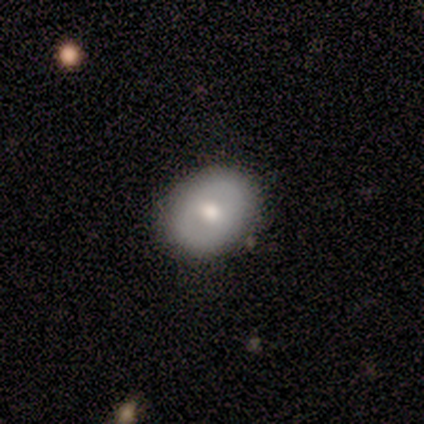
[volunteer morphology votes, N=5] smooth 60%, featured or disk 40%, star or artifact 0%. Down the decision tree: how rounded — in between (67%); merging — none (80%).